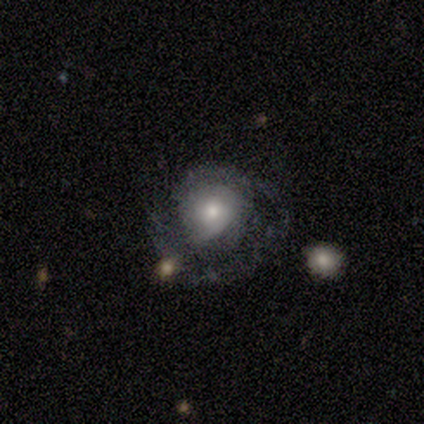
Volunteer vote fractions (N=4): smooth-or-featured: featured or disk: 75% | smooth: 25% | star or artifact: 0%
  disk-edge-on: no: 100% | yes: 0%
    bar: no: 67% | weak: 33% | strong: 0%
    has-spiral-arms: yes: 67% | no: 33%
      spiral-winding: tight: 50% (tied) | medium: 50% (tied) | loose: 0%
      spiral-arm-count: 1: 100% | 2: 0% | 3: 0% | 4: 0% | more than 4: 0% | can't tell: 0%
    bulge-size: moderate: 67% | small: 33% | dominant: 0% | large: 0% | none: 0%
  merging: none: 50% | major disturbance: 25% | merger: 25% | minor disturbance: 0%